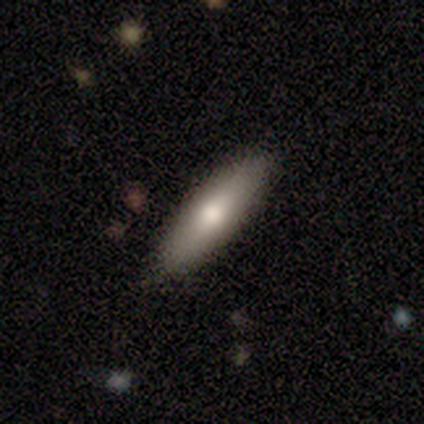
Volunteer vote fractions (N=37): Morphology: type=smooth (84%); roundness=cigar-shaped (65%); merging=none (77%).